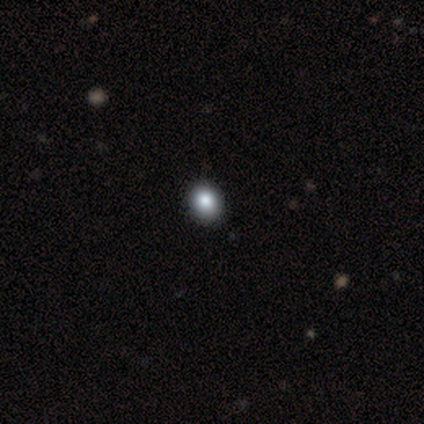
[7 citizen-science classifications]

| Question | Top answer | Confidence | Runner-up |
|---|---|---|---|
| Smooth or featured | smooth | 86% | star or artifact (14%) |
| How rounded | round | 67% | in between (33%) |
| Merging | none | 83% | minor disturbance (17%) |